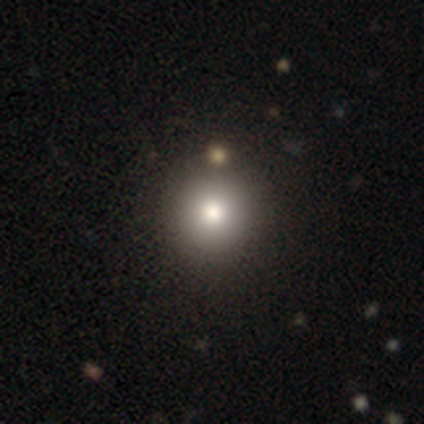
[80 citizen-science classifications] This is likely a smooth galaxy (78%). How rounded: clearly round (98%). Merging: possibly none (49%).